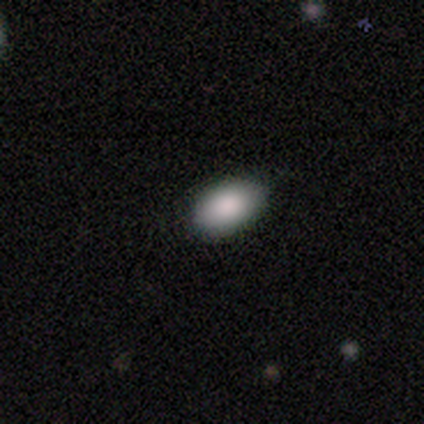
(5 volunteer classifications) This appears to be a smooth galaxy with no disk features (80%) that is in between round and cigar-shaped (100%). Merging: none (100%).